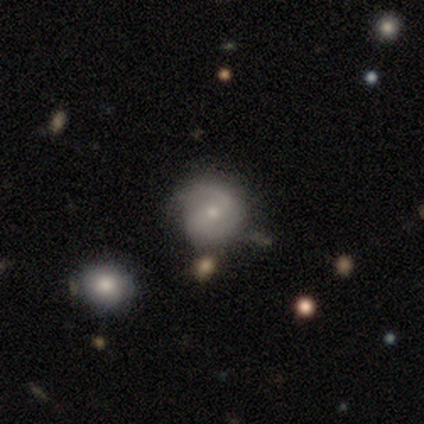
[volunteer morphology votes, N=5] Smooth or featured? 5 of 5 (100%) said featured or disk. Edge-on disk? 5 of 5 (100%) said no. Bar? 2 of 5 (40%, tied with no) said weak. Spiral arms? 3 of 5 (60%) said yes. Spiral winding? 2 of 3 (67%) said tight. Spiral arm count? 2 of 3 (67%) said 1. Bulge size? 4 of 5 (80%) said moderate. Merging? 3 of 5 (60%) said none.